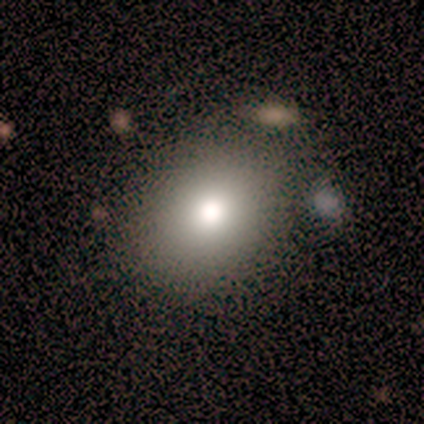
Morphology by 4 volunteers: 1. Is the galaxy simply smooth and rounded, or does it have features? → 100% smooth, 0% featured or disk, 0% star or artifact.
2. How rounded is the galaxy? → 75% round, 25% in between, 0% cigar-shaped.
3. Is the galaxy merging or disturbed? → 50% none (tied), 50% minor disturbance (tied), 0% major disturbance, 0% merger.